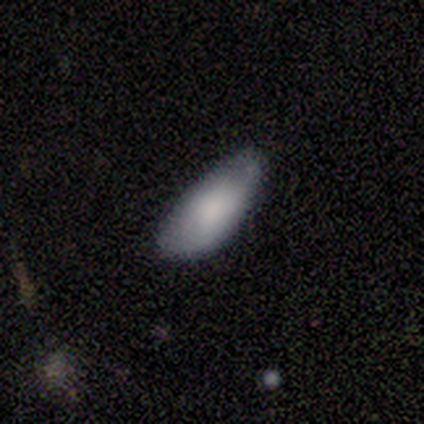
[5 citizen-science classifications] smooth_or_featured: smooth (p=1.00)
how_rounded: in between (p=0.80) [alt: cigar-shaped p=0.20]
merging: minor disturbance (p=0.60) [alt: none p=0.40]